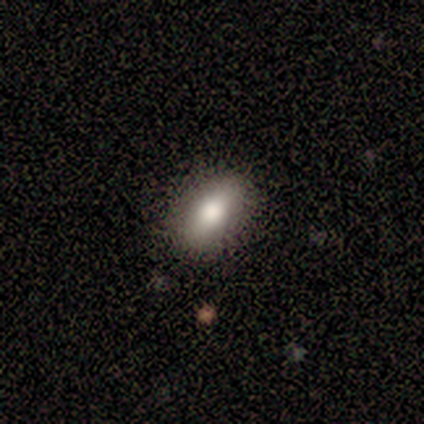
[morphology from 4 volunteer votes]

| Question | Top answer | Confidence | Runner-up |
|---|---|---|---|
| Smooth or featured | smooth | 50% | tied: featured or disk (50%) |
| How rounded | in between | 100% | — |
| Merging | none | 75% | minor disturbance (25%) |